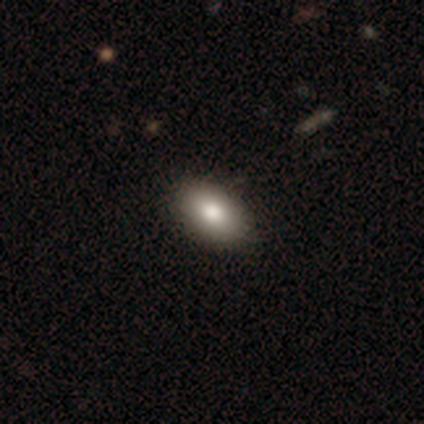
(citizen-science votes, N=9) Smooth or featured? smooth (78%)
How rounded? in between (100%)
Merging? none (88%)